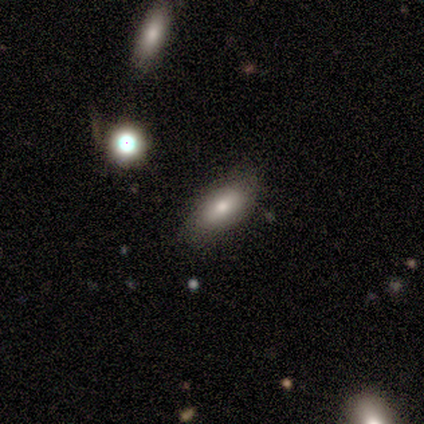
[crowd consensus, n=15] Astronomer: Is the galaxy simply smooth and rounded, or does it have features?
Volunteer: smooth — 73%.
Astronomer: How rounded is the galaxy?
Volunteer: in between — 91%.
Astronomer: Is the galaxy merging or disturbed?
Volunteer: none — 80%.